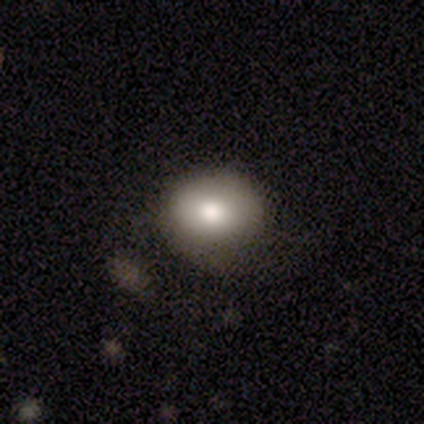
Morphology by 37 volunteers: Q: Smooth or featured?
A: smooth (76%); runner-up: featured or disk (14%)
Q: How rounded?
A: round (82%); runner-up: in between (18%)
Q: Merging?
A: none (79%); runner-up: minor disturbance (15%)